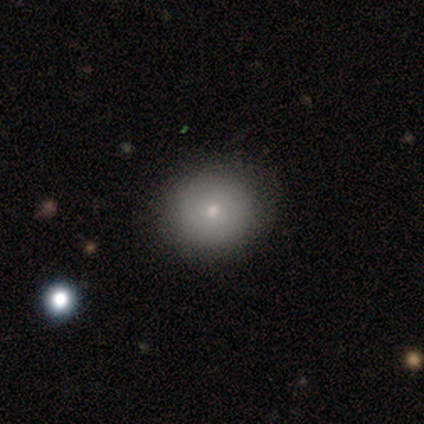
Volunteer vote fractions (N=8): Volunteers were most divided on "smooth or featured": featured or disk: 50%, smooth: 38%, star or artifact: 12%. More confident: edge-on disk — no (100%); bar — no (100%); spiral arms — no (100%); bulge size — small (75%); merging — none (71%).